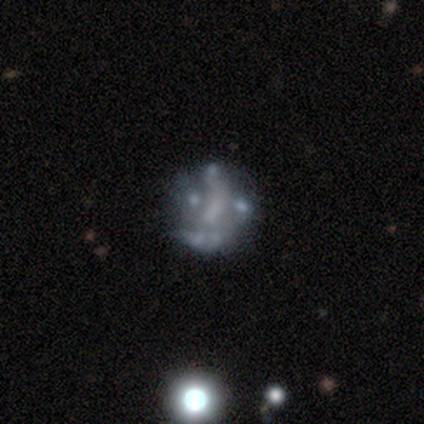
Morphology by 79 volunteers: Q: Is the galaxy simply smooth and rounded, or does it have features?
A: featured or disk — 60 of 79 (76%).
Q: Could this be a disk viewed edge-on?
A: no — 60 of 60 (100%).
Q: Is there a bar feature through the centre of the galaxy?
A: no — 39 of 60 (65%).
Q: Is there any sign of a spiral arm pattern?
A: no — 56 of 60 (93%).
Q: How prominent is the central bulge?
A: none — 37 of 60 (62%).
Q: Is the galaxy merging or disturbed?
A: none — 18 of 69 (26%).